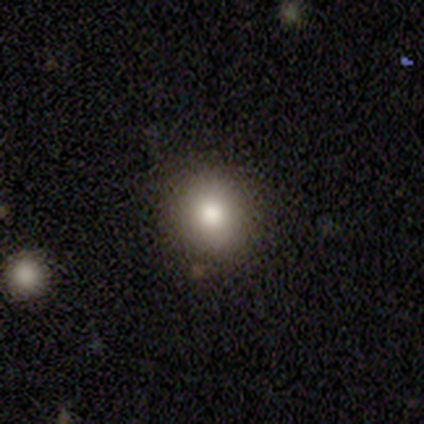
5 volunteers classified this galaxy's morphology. Volunteers were most divided on "merging": none: 60%, minor disturbance: 40%, major disturbance: 0%, merger: 0%. More confident: smooth or featured — smooth (80%); how rounded — round (75%).